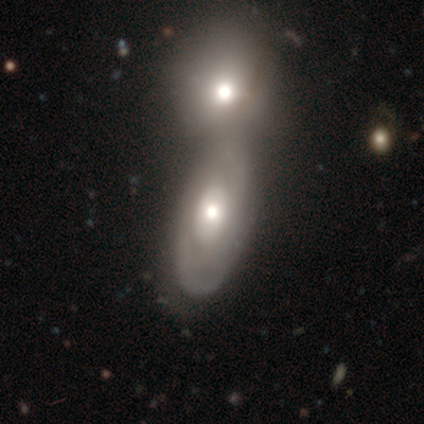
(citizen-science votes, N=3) smooth-or-featured: featured or disk: 100% | smooth: 0% | star or artifact: 0%
  disk-edge-on: no: 100% | yes: 0%
    bar: strong: 33% (tied) | weak: 33% (tied) | no: 33% (tied)
    has-spiral-arms: yes: 67% | no: 33%
      spiral-winding: medium: 50% (tied) | loose: 50% (tied) | tight: 0%
      spiral-arm-count: 2: 100% | 1: 0% | 3: 0% | 4: 0% | more than 4: 0% | can't tell: 0%
    bulge-size: dominant: 33% (tied) | moderate: 33% (tied) | small: 33% (tied) | large: 0% | none: 0%
  merging: merger: 100% | none: 0% | minor disturbance: 0% | major disturbance: 0%